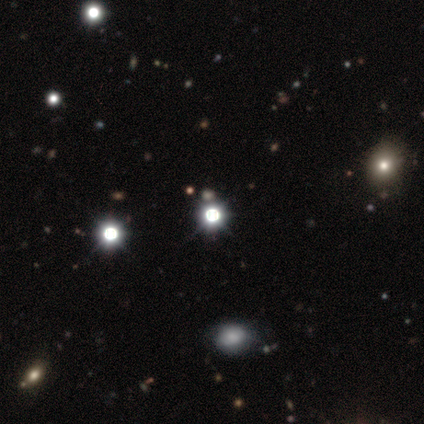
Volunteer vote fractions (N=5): This appears to be a star or artifact, not a galaxy (60%).